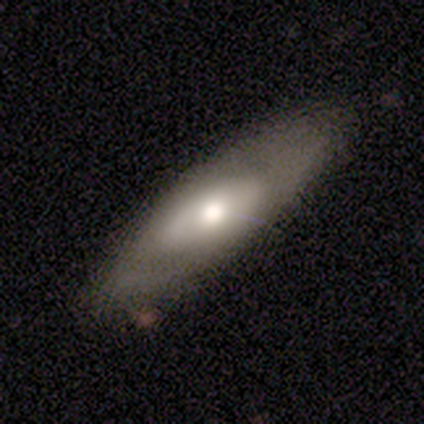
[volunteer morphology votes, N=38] A featured or disk galaxy (58%) with no bar (71%), no spiral arms (71%) and a moderate central bulge (65%). Merging: none (68%).